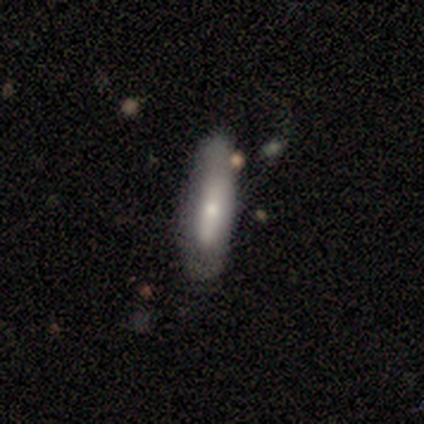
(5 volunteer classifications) smooth_or_featured: smooth (p=0.80) [alt: featured or disk p=0.20]
how_rounded: cigar-shaped (p=0.75) [alt: in between p=0.25]
merging: none (p=1.00)